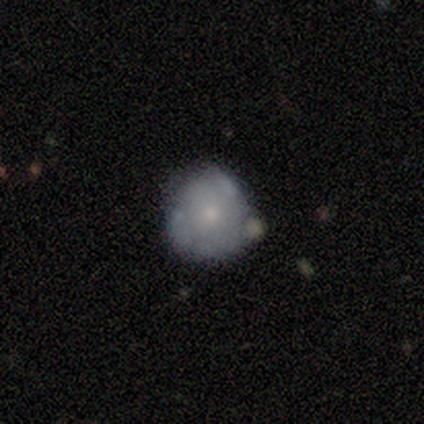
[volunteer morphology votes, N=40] Smooth or featured: smooth — 52% (featured or disk — 45%)
How rounded: round — 81% (in between — 19%)
Merging: none — 59% (minor disturbance — 28%)